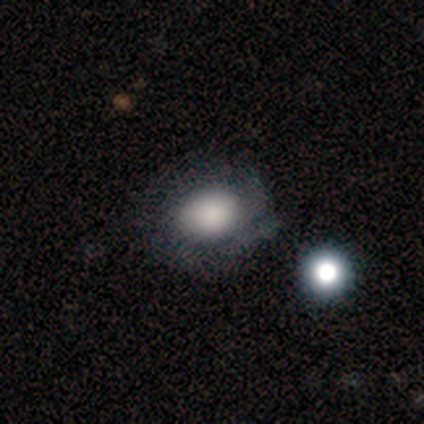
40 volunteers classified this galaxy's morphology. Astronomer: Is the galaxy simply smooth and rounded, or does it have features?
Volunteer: smooth — 68%.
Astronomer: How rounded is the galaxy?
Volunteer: round — 56% (runner-up: in between, 44%).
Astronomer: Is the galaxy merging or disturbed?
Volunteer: none — 58%.